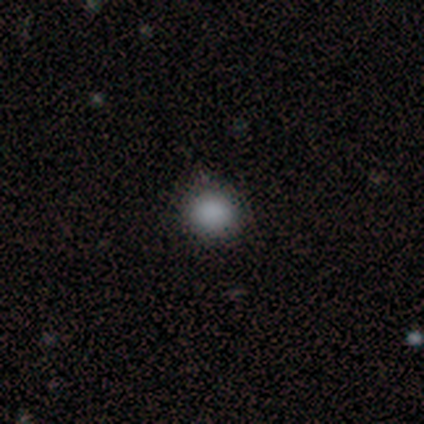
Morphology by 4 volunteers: A smooth galaxy with no disk features (75%) that is round (100%).

Vote fractions:
- Smooth or featured? smooth: 75% / star or artifact: 25% / featured or disk: 0%
- How rounded? round: 100% / in between: 0% / cigar-shaped: 0%
- Merging? none: 100% / minor disturbance: 0% / major disturbance: 0% / merger: 0%